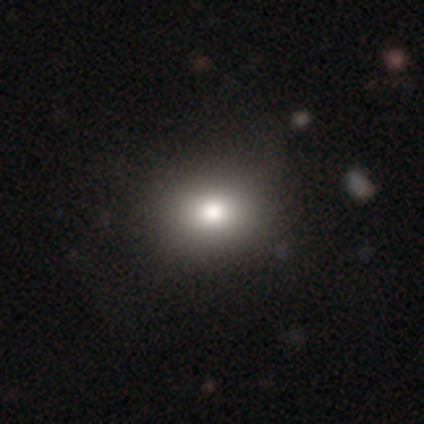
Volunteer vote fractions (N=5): This appears to be a smooth galaxy with no disk features (60%) that is round (67%). Merging: none (100%).